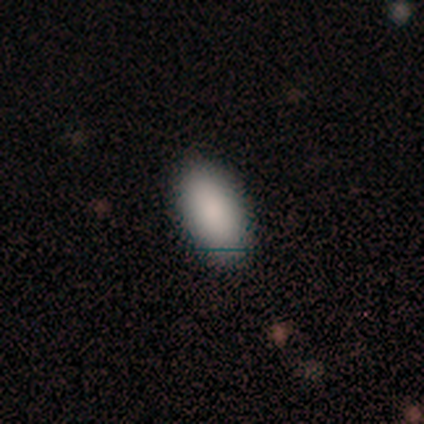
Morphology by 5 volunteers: Q: Smooth or featured?
A: smooth (80%); runner-up: featured or disk (20%)
Q: How rounded?
A: in between (100%)
Q: Merging?
A: none (80%); runner-up: major disturbance (20%)